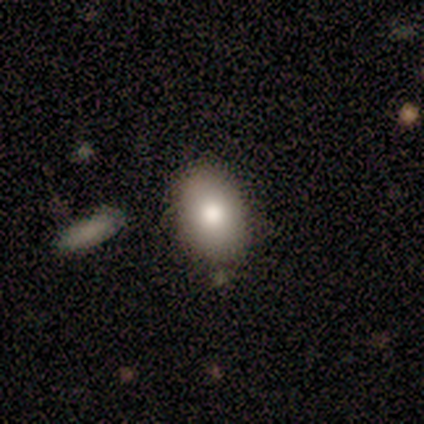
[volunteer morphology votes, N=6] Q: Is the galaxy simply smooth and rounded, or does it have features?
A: smooth — 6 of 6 (100%).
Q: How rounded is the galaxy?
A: in between — 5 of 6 (83%).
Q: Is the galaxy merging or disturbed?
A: none — 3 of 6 (50%).